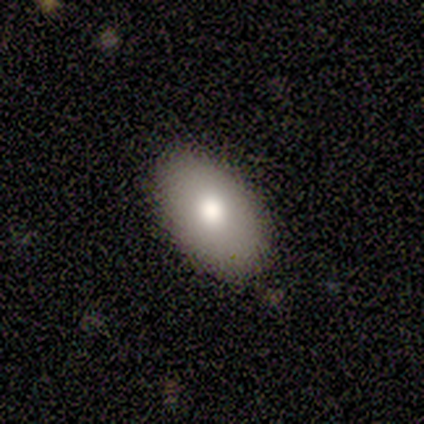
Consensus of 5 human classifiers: smooth 100%, featured or disk 0%, star or artifact 0%. Down the decision tree: how rounded — in between (80%); merging — none (80%).